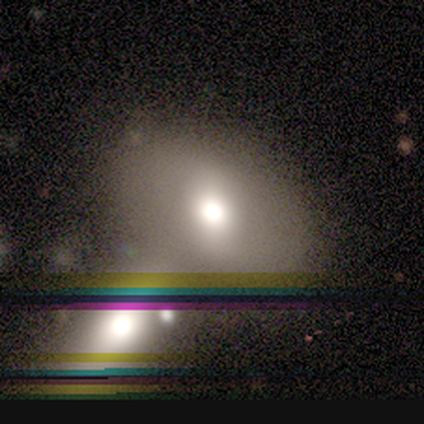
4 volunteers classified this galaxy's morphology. A smooth galaxy with no disk features (50%, tied with featured or disk) that is round (50%, tied with in between).

Vote fractions:
- Smooth or featured? smooth: 50% (tied) / featured or disk: 50% (tied) / star or artifact: 0%
- How rounded? round: 50% (tied) / in between: 50% (tied) / cigar-shaped: 0%
- Merging? merger: 50% / none: 25% / minor disturbance: 25% / major disturbance: 0%